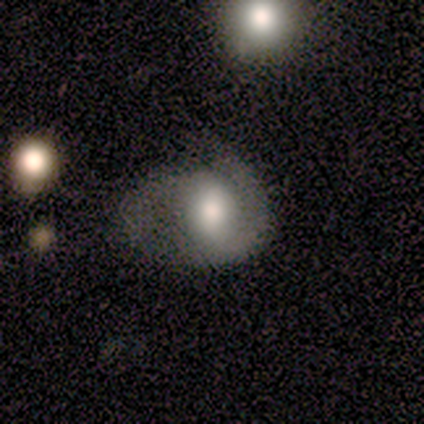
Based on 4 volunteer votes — Morphology: type=smooth (75%); roundness=in between (100%); merging=minor disturbance (50%, tied with major disturbance).